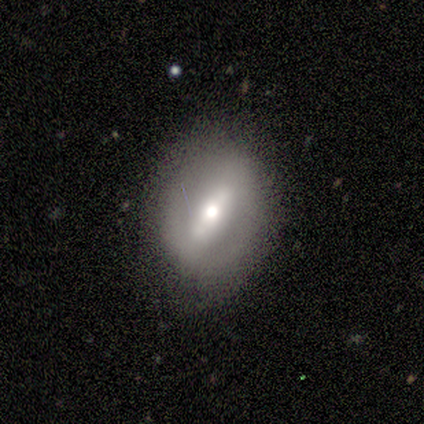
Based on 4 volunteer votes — This is likely a featured or disk galaxy (75%). It is clearly not viewed edge-on (100%). Bar: clearly strong (100%). Spiral arm pattern: likely yes (67%). Spiral arm count: clearly 2 (100%). Spiral winding: possibly tight (50%, tied with medium). Central bulge: clearly moderate (100%). Merging: clearly none (100%).